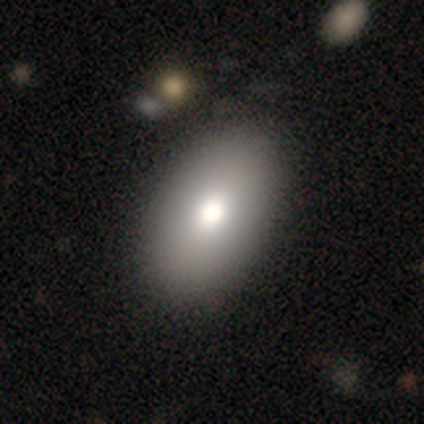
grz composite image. It shows a smooth galaxy with no disk features (90%) that is in between round and cigar-shaped (94%). Merging: none (57%).